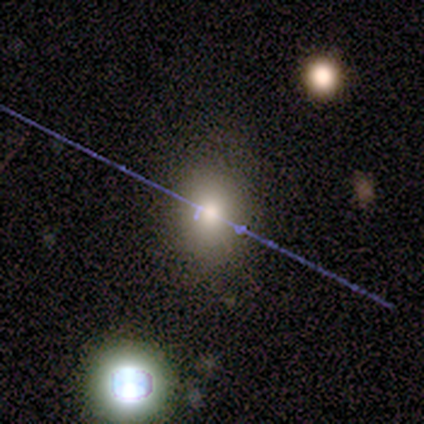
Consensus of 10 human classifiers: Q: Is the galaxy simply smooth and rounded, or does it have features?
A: smooth — 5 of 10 (50%).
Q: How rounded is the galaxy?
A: round — 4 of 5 (80%).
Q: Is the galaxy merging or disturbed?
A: none — 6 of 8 (75%).